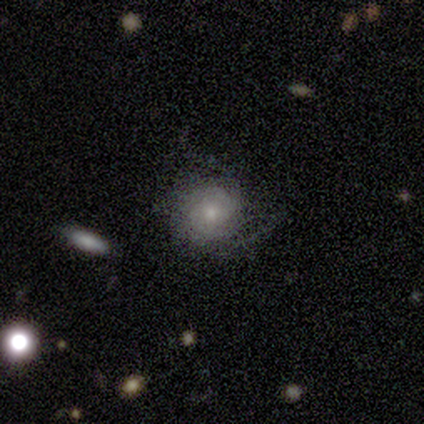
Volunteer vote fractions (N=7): Smooth or featured? 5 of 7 (71%) said featured or disk. Edge-on disk? 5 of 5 (100%) said no. Bar? 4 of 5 (80%) said no. Spiral arms? 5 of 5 (100%) said yes. Spiral winding? 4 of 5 (80%) said tight. Spiral arm count? 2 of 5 (40%, tied with can't tell) said 3. Bulge size? 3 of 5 (60%) said moderate. Merging? 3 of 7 (43%) said major disturbance.